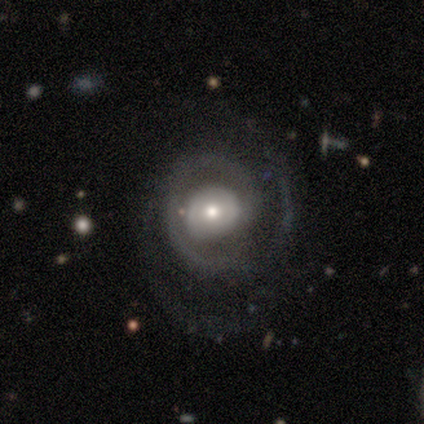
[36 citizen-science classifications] A featured or disk galaxy (92%) with no bar (62%), 2 (73%) tight (40%) spiral arms (94%) and a moderate central bulge (59%).

Vote fractions:
- Smooth or featured? featured or disk: 92% / smooth: 8% / star or artifact: 0%
- Edge-on disk? no: 97% / yes: 3%
- Bar? no: 62% / weak: 28% / strong: 9%
- Spiral arms? yes: 94% / no: 6%
- Spiral winding? tight: 40% / medium: 37% / loose: 23%
- Spiral arm count? 2: 73% / 1: 10% / can't tell: 10% / 3: 7% / 4: 0% / more than 4: 0%
- Bulge size? moderate: 59% / small: 31% / large: 6% / none: 3% / dominant: 0%
- Merging? none: 67% / major disturbance: 17% / minor disturbance: 14% / merger: 3%